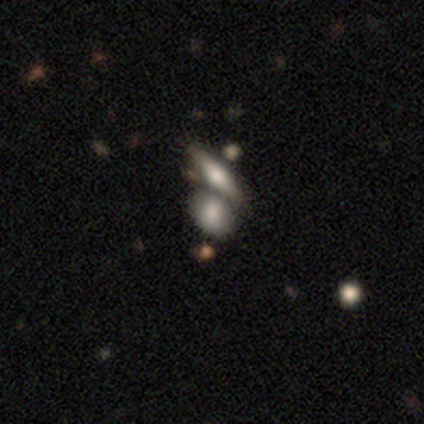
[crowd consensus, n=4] A smooth galaxy with no disk features (75%) that is in between round and cigar-shaped (100%). Merging: none (67%).